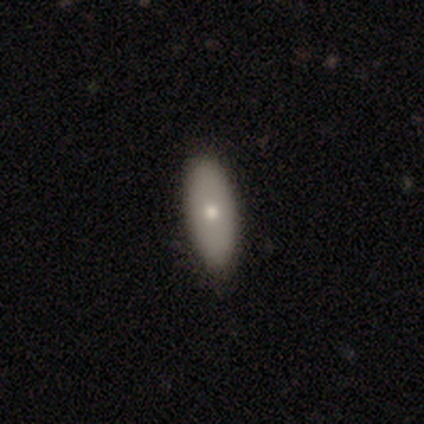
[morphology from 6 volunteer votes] Smooth or featured?
  - featured or disk: 83% *
  - smooth: 17%
  - star or artifact: 0%
Edge-on disk?
  - yes: 60% *
  - no: 40%
Edge-on bulge?
  - rounded: 100% *
  - boxy: 0%
  - none: 0%
Merging?
  - none: 100% *
  - minor disturbance: 0%
  - major disturbance: 0%
  - merger: 0%